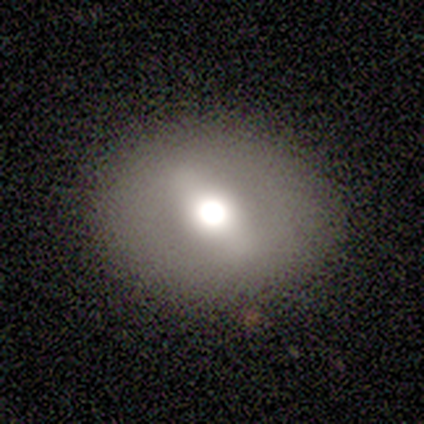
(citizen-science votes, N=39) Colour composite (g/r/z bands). It shows a featured or disk galaxy (51%) with a strong bar (41%, tied with weak), no spiral arms (94%) and a moderate central bulge (59%). Merging: none (89%).